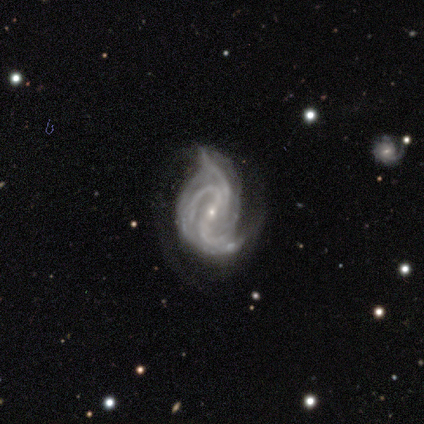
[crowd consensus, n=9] Smooth or featured?
  - featured or disk: 78% *
  - star or artifact: 22%
  - smooth: 0%
Edge-on disk?
  - no: 100% *
  - yes: 0%
Bar?
  - weak: 57% *
  - strong: 29%
  - no: 14%
Spiral arms?
  - yes: 100% *
  - no: 0%
Spiral winding?
  - medium: 43% * (tied)
  - loose: 43% * (tied)
  - tight: 14%
Spiral arm count?
  - 3: 43% *
  - 2: 29%
  - more than 4: 14%
  - can't tell: 14%
  - 1: 0%
  - 4: 0%
Bulge size?
  - small: 86% *
  - moderate: 14%
  - dominant: 0%
  - large: 0%
  - none: 0%
Merging?
  - minor disturbance: 57% *
  - major disturbance: 29%
  - none: 14%
  - merger: 0%